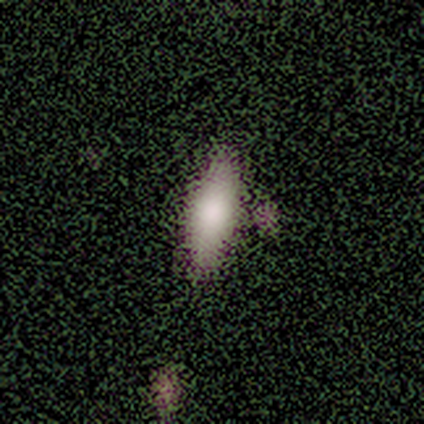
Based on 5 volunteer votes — Smooth or featured? 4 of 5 (80%) said smooth. How rounded? 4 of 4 (100%) said in between. Merging? 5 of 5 (100%) said none.